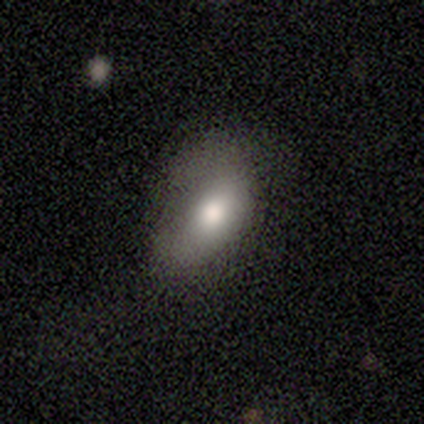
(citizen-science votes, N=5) Q: Smooth or featured?
A: smooth (100%)
Q: How rounded?
A: in between (80%); runner-up: round (20%)
Q: Merging?
A: none (40%); tied with: minor disturbance (40%)